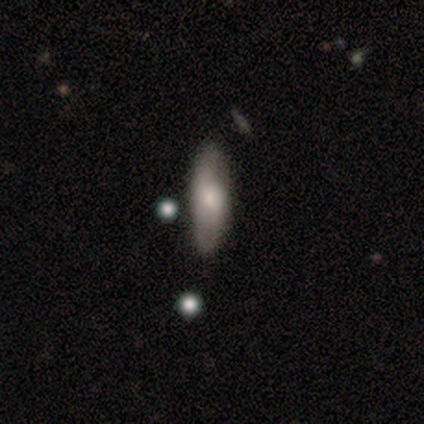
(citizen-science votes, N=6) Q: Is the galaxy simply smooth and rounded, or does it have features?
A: smooth — 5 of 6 (83%).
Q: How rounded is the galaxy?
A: in between — 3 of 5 (60%).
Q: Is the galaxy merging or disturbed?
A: none — 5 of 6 (83%).